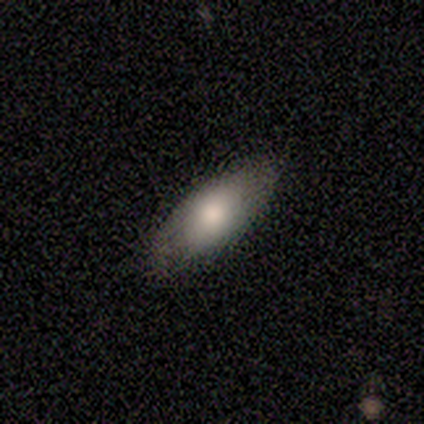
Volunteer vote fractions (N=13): Smooth or featured? smooth (77%)
How rounded? in between (80%)
Merging? none (75%)